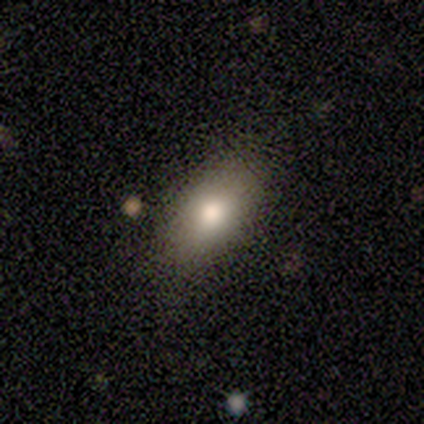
This is likely a smooth galaxy (60%). How rounded: clearly in between (100%). Merging: likely none (60%).